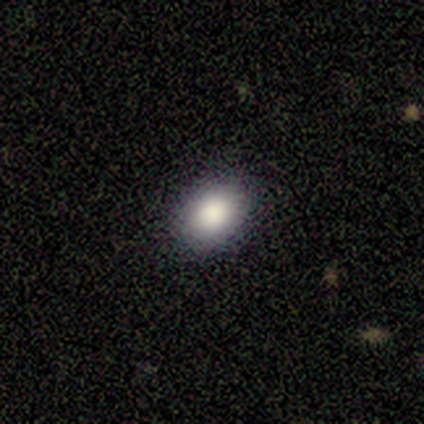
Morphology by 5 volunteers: Q: Smooth or featured?
A: smooth (80%); runner-up: featured or disk (20%)
Q: How rounded?
A: in between (75%); runner-up: round (25%)
Q: Merging?
A: none (80%); runner-up: minor disturbance (20%)